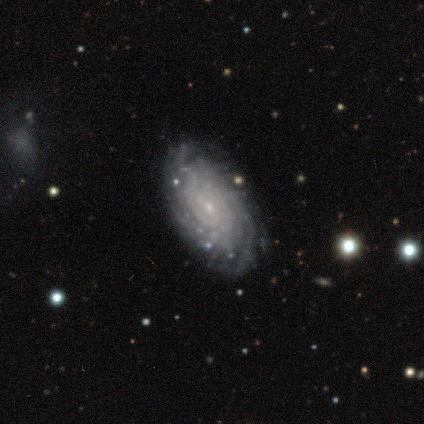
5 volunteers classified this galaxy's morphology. Smooth or featured? featured or disk (100%)
Edge-on disk? no (100%)
Bar? no (80%)
Spiral arms? yes (100%)
Spiral winding? tight (100%)
Spiral arm count? more than 4 (40%)
Bulge size? small (100%)
Merging? none (100%)